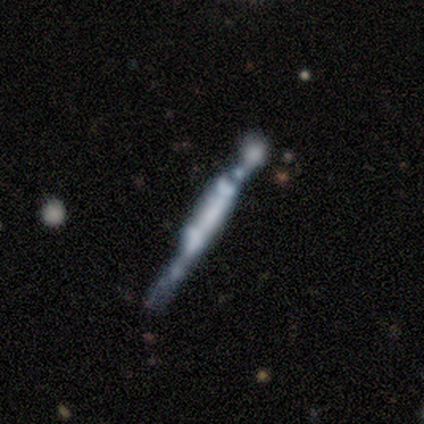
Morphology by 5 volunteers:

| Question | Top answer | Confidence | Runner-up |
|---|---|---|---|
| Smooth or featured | featured or disk | 100% | — |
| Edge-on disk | yes | 100% | — |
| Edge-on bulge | boxy | 100% | — |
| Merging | none | 60% | minor disturbance (40%) |